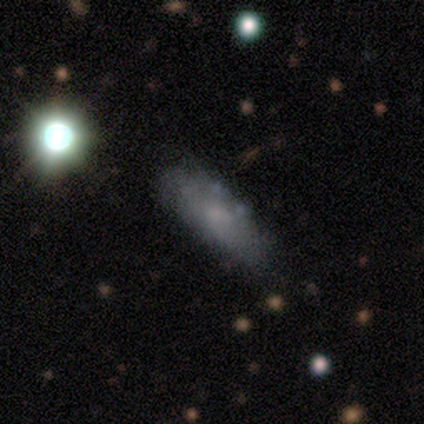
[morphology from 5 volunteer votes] smooth_or_featured: featured or disk (p=0.60) [alt: smooth p=0.40]
disk_edge_on: yes (p=0.67) [alt: no p=0.33]
edge_on_bulge: none (p=1.00)
merging: none (p=1.00)